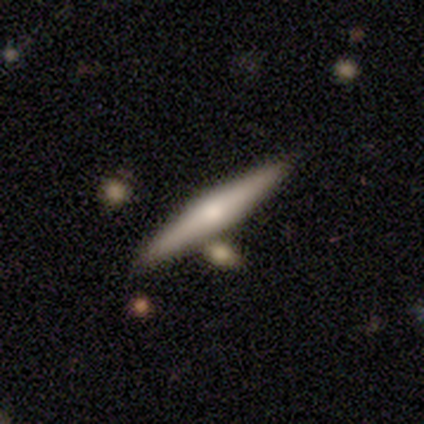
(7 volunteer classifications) A featured or disk galaxy (71%) viewed edge-on (60%) with a rounded central bulge (67%). Merging: none (83%).